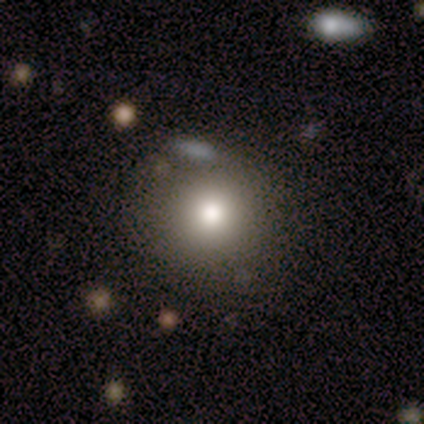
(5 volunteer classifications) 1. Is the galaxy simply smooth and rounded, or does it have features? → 100% smooth, 0% featured or disk, 0% star or artifact.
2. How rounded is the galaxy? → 100% round, 0% in between, 0% cigar-shaped.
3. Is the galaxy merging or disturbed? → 80% none, 20% minor disturbance, 0% major disturbance, 0% merger.